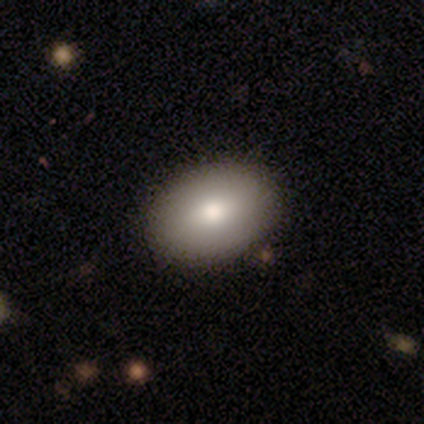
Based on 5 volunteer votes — This appears to be a smooth galaxy with no disk features (80%) that is in between round and cigar-shaped (100%). Merging: none (100%).